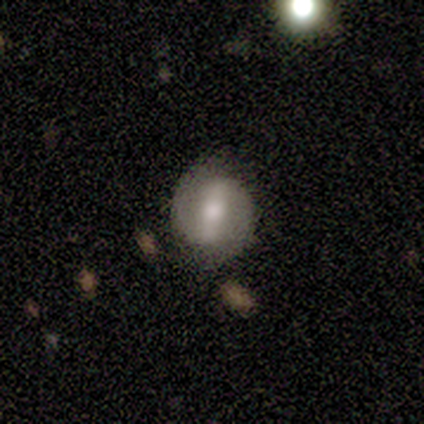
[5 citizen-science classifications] smooth_or_featured: featured or disk (p=0.80) [alt: smooth p=0.20]
disk_edge_on: no (p=1.00)
bar: strong (p=0.75) [alt: weak p=0.25]
has_spiral_arms: yes (p=1.00)
spiral_winding: medium (p=0.50) [alt: tight p=0.25]
spiral_arm_count: 2 (p=1.00)
bulge_size: moderate (p=0.50) [tied with: small p=0.50]
merging: none (p=0.80) [alt: minor disturbance p=0.20]